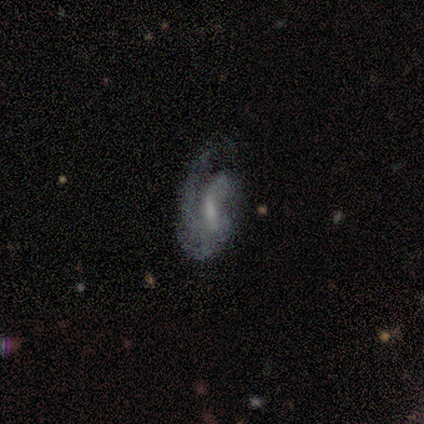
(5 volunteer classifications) Smooth or featured: featured or disk — 80% (smooth — 20%)
Edge-on disk: no — 100%
Bar: weak — 50% (tied with no — 50%)
Spiral arms: yes — 100%
Spiral winding: tight — 50% (medium — 25%)
Spiral arm count: 1 — 50% (2 — 25%)
Bulge size: moderate — 50% (tied with small — 50%)
Merging: none — 60% (minor disturbance — 40%)